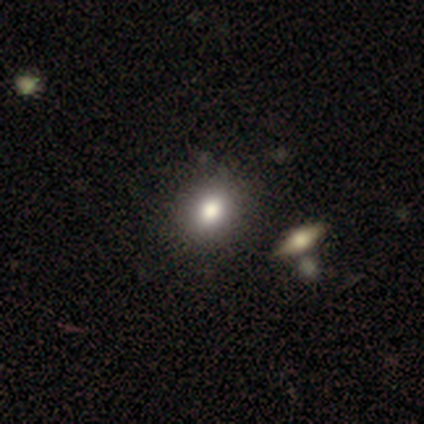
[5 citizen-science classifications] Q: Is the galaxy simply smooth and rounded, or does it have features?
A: smooth — 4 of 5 (80%).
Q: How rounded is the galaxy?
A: round — 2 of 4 (50%, tied with in between).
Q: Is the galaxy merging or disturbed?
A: none — 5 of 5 (100%).